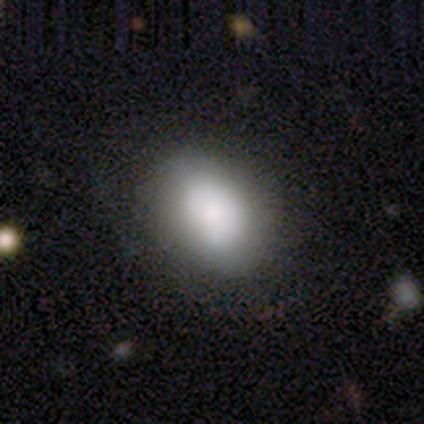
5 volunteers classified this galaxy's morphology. A smooth galaxy with no disk features (80%) that is in between round and cigar-shaped (75%).

Vote fractions:
- Smooth or featured? smooth: 80% / star or artifact: 20% / featured or disk: 0%
- How rounded? in between: 75% / round: 25% / cigar-shaped: 0%
- Merging? none: 50% (tied) / major disturbance: 50% (tied) / minor disturbance: 0% / merger: 0%